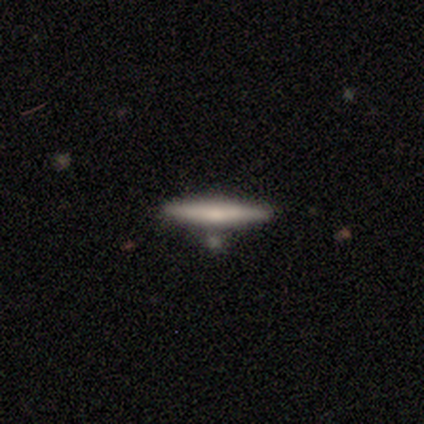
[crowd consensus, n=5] A featured or disk galaxy (60%) viewed edge-on (100%) with no central bulge (67%).

Vote fractions:
- Smooth or featured? featured or disk: 60% / smooth: 40% / star or artifact: 0%
- Edge-on disk? yes: 100% / no: 0%
- Edge-on bulge? none: 67% / rounded: 33% / boxy: 0%
- Merging? none: 100% / minor disturbance: 0% / major disturbance: 0% / merger: 0%